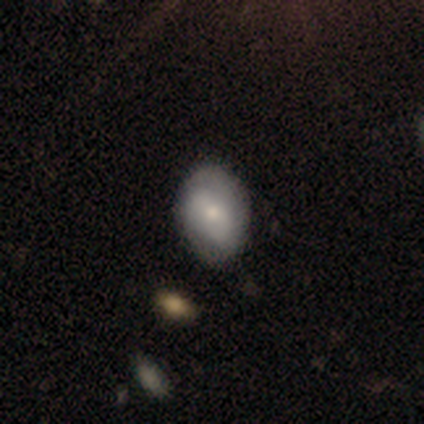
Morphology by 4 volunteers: Smooth or featured: smooth — 50% (tied with featured or disk — 50%)
How rounded: in between — 100%
Merging: none — 75% (minor disturbance — 25%)